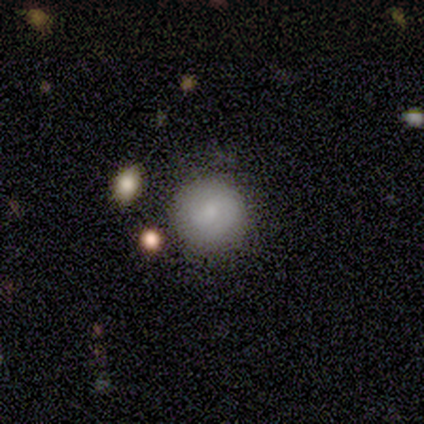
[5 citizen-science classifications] smooth-or-featured: smooth: 80% | featured or disk: 20% | star or artifact: 0%
  how-rounded: round: 100% | in between: 0% | cigar-shaped: 0%
  merging: none: 100% | minor disturbance: 0% | major disturbance: 0% | merger: 0%